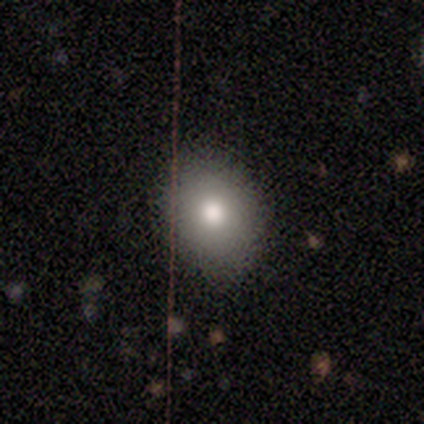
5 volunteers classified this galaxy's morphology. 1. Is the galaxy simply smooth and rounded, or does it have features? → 80% smooth, 20% featured or disk, 0% star or artifact.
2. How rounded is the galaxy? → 75% round, 25% in between, 0% cigar-shaped.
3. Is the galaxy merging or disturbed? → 100% none, 0% minor disturbance, 0% major disturbance, 0% merger.